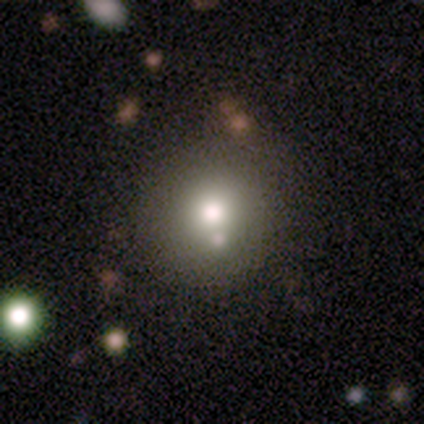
Morphology: type=smooth (88%); roundness=round (91%); merging=none (74%).